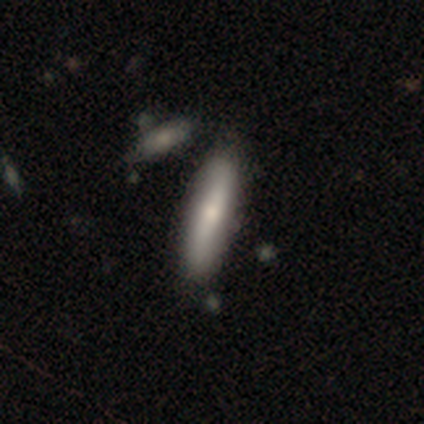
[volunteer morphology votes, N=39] smooth-or-featured: smooth: 67% | featured or disk: 28% | star or artifact: 5%
  how-rounded: cigar-shaped: 77% | in between: 23% | round: 0%
  merging: none: 59% | merger: 11% | minor disturbance: 3% | major disturbance: 0%